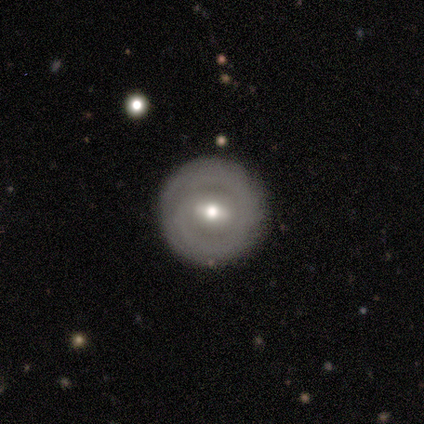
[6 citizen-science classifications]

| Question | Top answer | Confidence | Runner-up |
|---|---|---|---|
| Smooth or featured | smooth | 50% | tied: featured or disk (50%) |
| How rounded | round | 100% | — |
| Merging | none | 83% | minor disturbance (17%) |